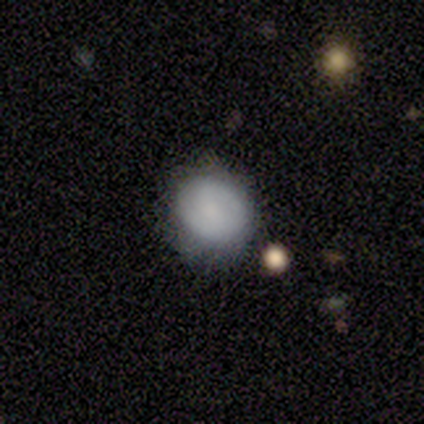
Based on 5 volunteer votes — Smooth or featured?
  - smooth: 80% *
  - featured or disk: 20%
  - star or artifact: 0%
How rounded?
  - round: 100% *
  - in between: 0%
  - cigar-shaped: 0%
Merging?
  - none: 80% *
  - minor disturbance: 20%
  - major disturbance: 0%
  - merger: 0%